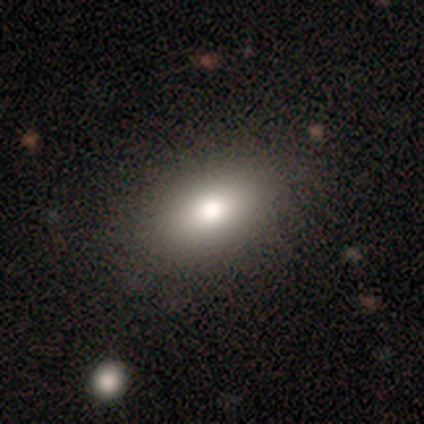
Smooth or featured?
  - smooth: 100% *
  - featured or disk: 0%
  - star or artifact: 0%
How rounded?
  - in between: 100% *
  - round: 0%
  - cigar-shaped: 0%
Merging?
  - none: 100% *
  - minor disturbance: 0%
  - major disturbance: 0%
  - merger: 0%